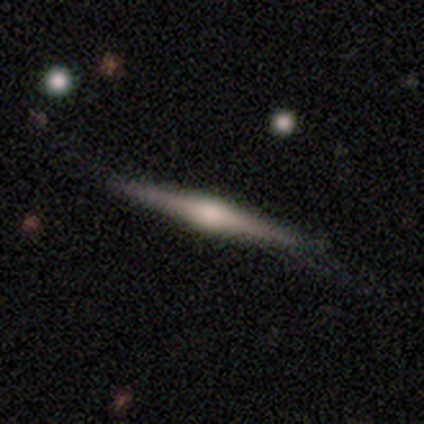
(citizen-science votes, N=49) featured or disk 73%, smooth 18%, star or artifact 8%. Down the decision tree: edge-on disk — yes (97%); edge-on bulge — rounded (91%); merging — none (78%).